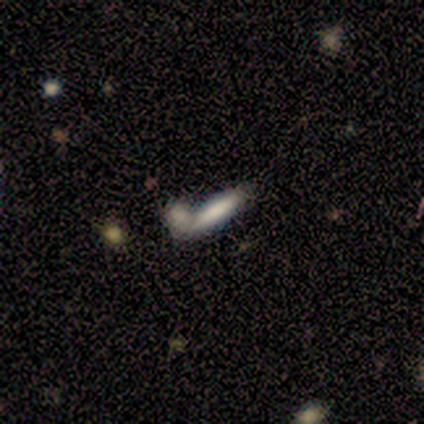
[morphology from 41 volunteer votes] Smooth or featured? 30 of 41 (73%) said smooth. How rounded? 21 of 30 (70%) said cigar-shaped. Merging? 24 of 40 (60%) said merger.